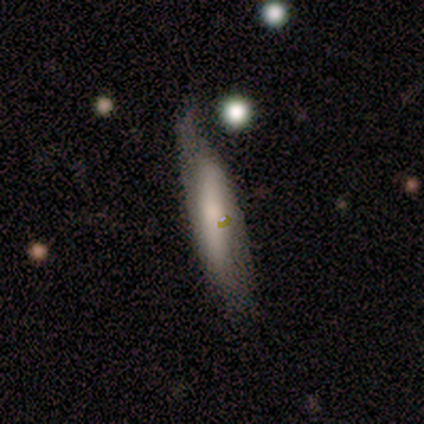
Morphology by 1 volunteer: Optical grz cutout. It shows a featured or disk galaxy (100%) viewed edge-on (100%) with a boxy central bulge (100%). Merging: minor disturbance (100%).